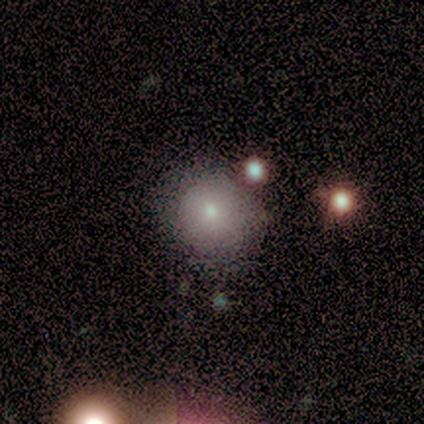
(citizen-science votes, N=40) Morphology: type=smooth (65%); roundness=round (85%); merging=none (81%).